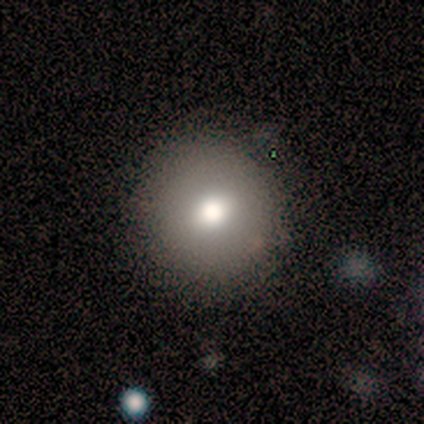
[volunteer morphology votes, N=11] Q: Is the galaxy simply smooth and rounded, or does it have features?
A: smooth — 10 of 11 (91%).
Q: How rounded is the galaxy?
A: round — 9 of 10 (90%).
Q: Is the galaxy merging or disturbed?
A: none — 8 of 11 (73%).